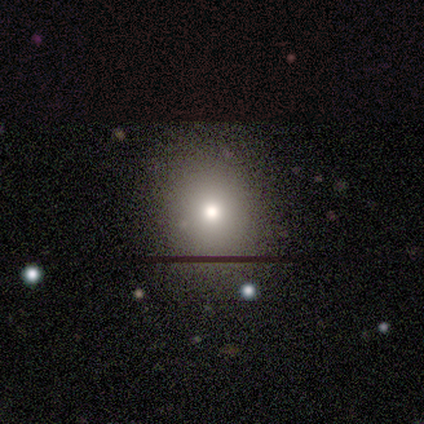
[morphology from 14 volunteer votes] smooth_or_featured: smooth (p=0.86) [alt: featured or disk p=0.07]
how_rounded: round (p=0.67) [alt: in between p=0.33]
merging: none (p=0.77) [alt: minor disturbance p=0.15]